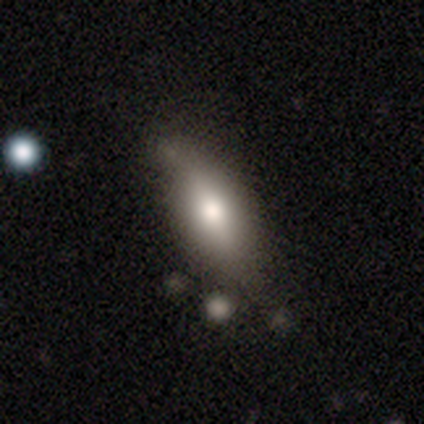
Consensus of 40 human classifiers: This appears to be a smooth galaxy with no disk features (65%) that is in between round and cigar-shaped (81%). Merging: none (38%, tied with minor disturbance).